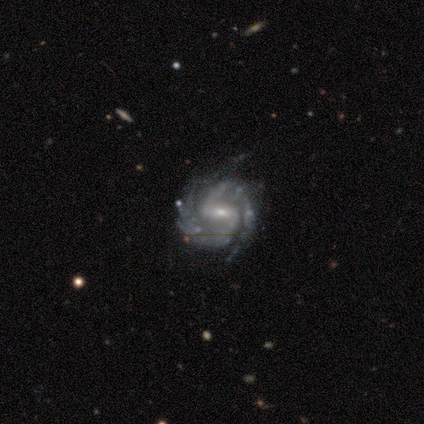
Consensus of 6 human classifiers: Smooth or featured? 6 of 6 (100%) said featured or disk. Edge-on disk? 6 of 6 (100%) said no. Bar? 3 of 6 (50%) said weak. Spiral arms? 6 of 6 (100%) said yes. Spiral winding? 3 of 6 (50%, tied with medium) said tight. Spiral arm count? 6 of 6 (100%) said 2. Bulge size? 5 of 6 (83%) said small. Merging? 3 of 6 (50%) said none.